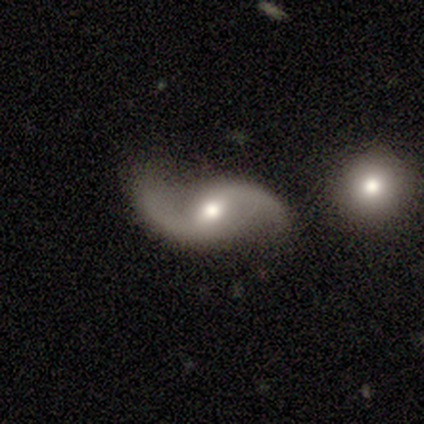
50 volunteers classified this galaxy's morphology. Overall: featured or disk (96%). Edge-on disk: no (98%). Bar: weak (49%; no 45%). Spiral arms: yes (96%). Spiral arm count: 2 (96%). Spiral winding: loose (89%). Bulge size: moderate (72%). Merging: none (68%).